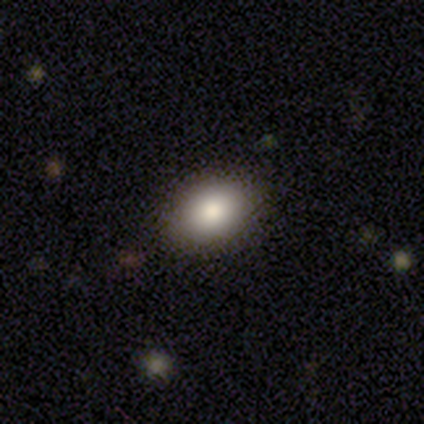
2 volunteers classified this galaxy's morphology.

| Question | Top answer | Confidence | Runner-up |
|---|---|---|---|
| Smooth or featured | smooth | 100% | — |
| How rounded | in between | 100% | — |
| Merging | none | 100% | — |